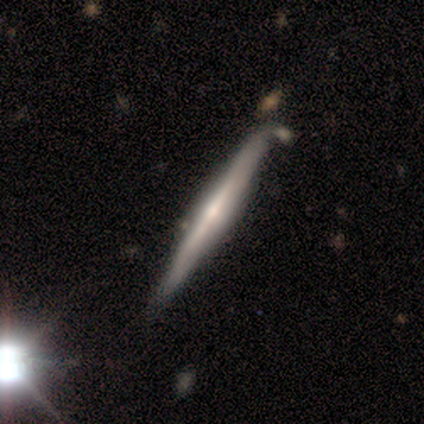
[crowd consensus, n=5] This is clearly a featured or disk galaxy (100%). It is clearly viewed edge-on (100%). Edge-on bulge: likely rounded (60%). Merging: likely none (60%).